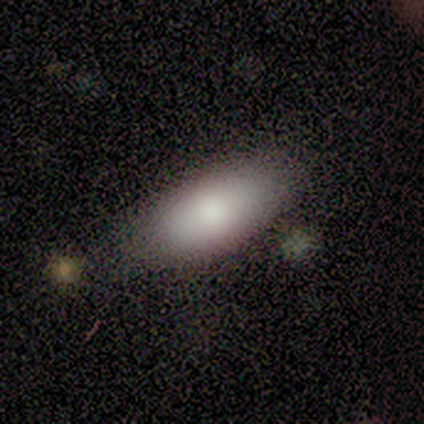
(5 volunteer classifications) Q: Smooth or featured?
A: smooth (100%)
Q: How rounded?
A: in between (80%); runner-up: cigar-shaped (20%)
Q: Merging?
A: none (100%)